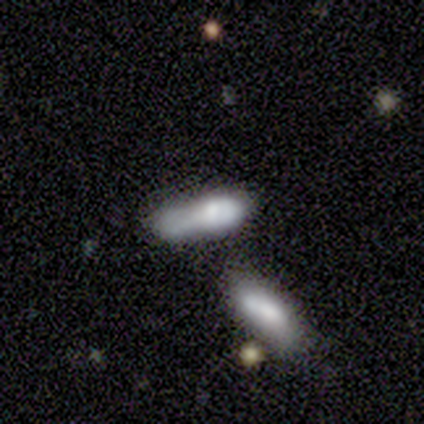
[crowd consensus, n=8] Overall: smooth (62%; featured or disk 38%). How rounded: cigar-shaped (60%; in between 40%). Merging: merger (75%).